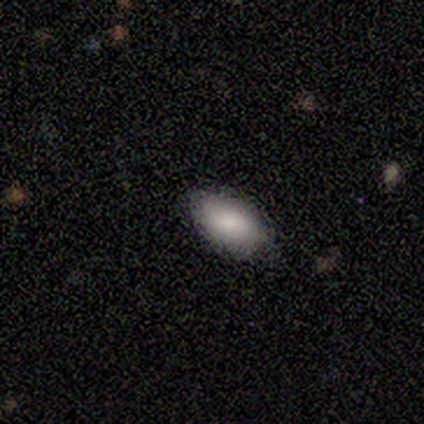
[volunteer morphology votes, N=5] smooth 60%, featured or disk 20%, star or artifact 20%. Down the decision tree: how rounded — in between (100%); merging — none (75%).